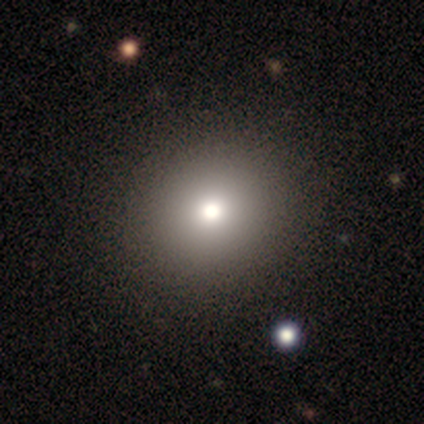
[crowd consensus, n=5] Q: Smooth or featured?
A: smooth (80%); runner-up: star or artifact (20%)
Q: How rounded?
A: round (100%)
Q: Merging?
A: none (100%)